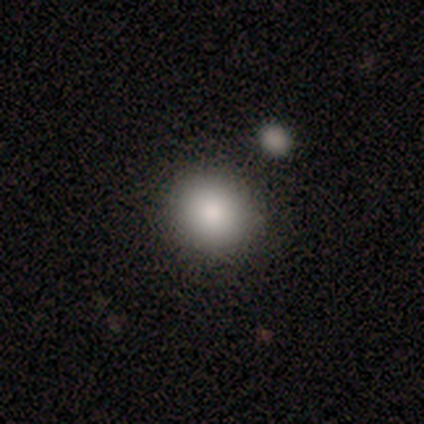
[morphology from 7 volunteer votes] This appears to be a smooth galaxy with no disk features (86%) that is round (83%). Merging: none (100%).